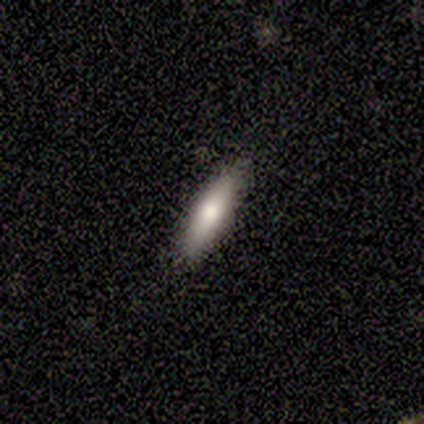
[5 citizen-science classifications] Smooth or featured? smooth (60%)
How rounded? cigar-shaped (67%)
Merging? none (100%)